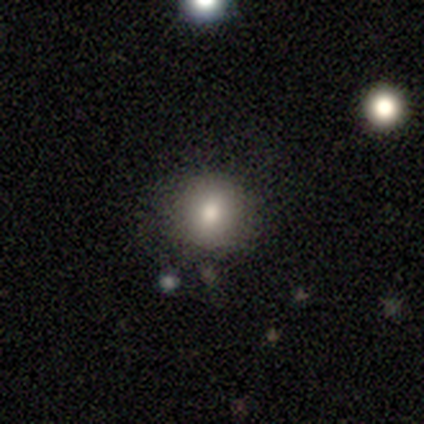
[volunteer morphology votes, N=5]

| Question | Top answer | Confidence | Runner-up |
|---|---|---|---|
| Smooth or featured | smooth | 80% | star or artifact (20%) |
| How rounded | round | 75% | in between (25%) |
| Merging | none | 100% | — |